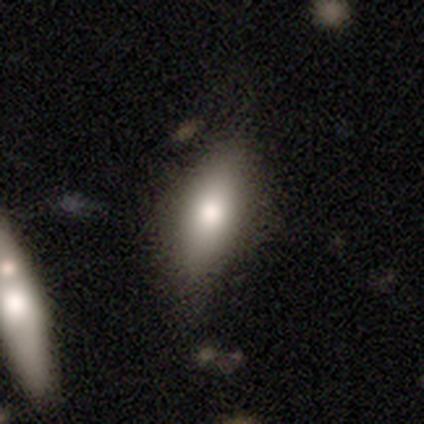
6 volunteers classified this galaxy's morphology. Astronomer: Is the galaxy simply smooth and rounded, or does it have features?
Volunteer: smooth — 83%.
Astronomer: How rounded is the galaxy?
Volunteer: in between — 80%.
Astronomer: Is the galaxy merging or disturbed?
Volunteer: none — 100%.